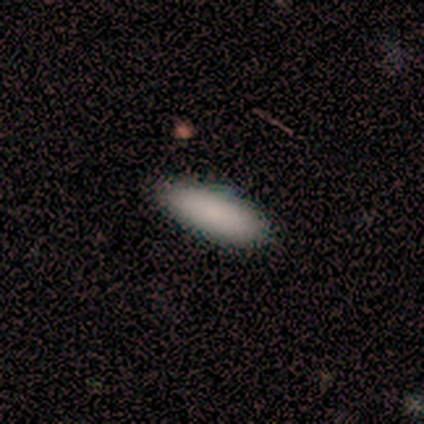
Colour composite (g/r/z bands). It shows a smooth galaxy with no disk features (100%) that is in between round and cigar-shaped (100%). Merging: none (100%).